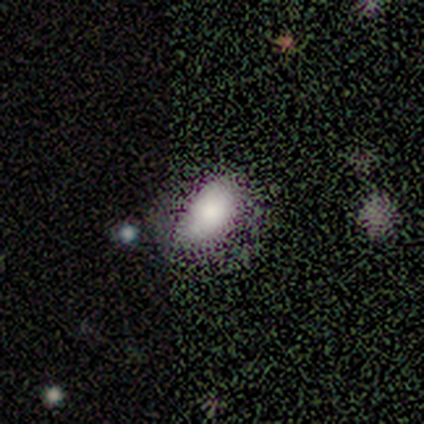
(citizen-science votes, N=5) Smooth or featured? smooth (80%)
How rounded? in between (100%)
Merging? none (75%)